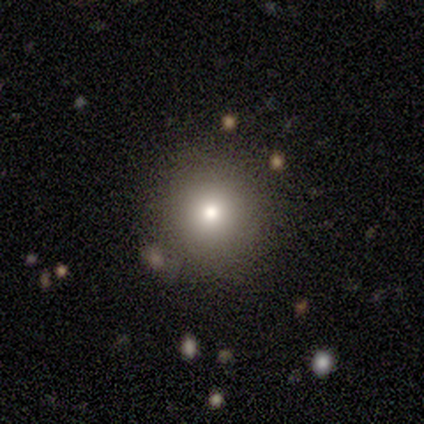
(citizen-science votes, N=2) Overall: smooth (50%, tied with featured or disk). How rounded: in between (100%). Merging: minor disturbance (100%).